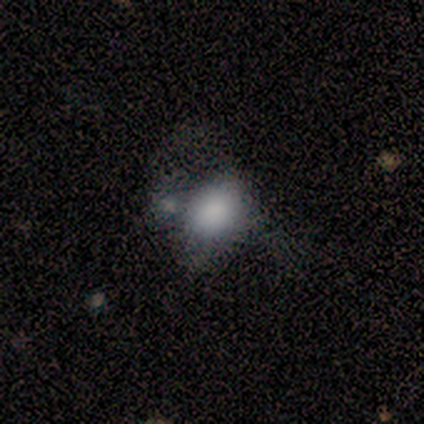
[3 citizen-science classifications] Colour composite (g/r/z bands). It shows a smooth galaxy with no disk features (100%) that is round (67%). Merging: minor disturbance (33%, tied with major disturbance and merger).